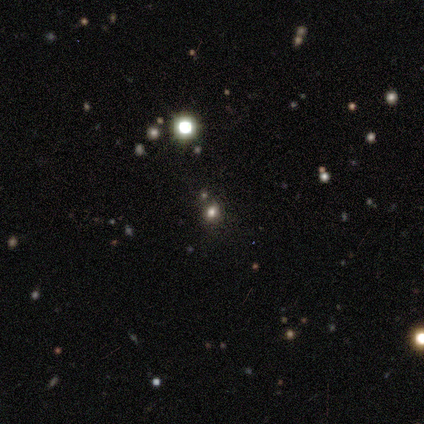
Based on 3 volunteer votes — This is clearly a star or artifact rather than a galaxy (100%).